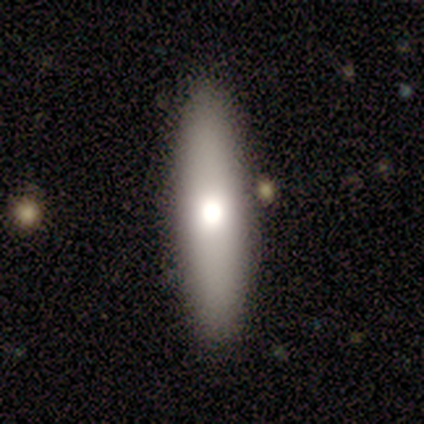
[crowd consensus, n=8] A smooth galaxy with no disk features (62%) that is cigar-shaped (60%). Merging: none (88%).